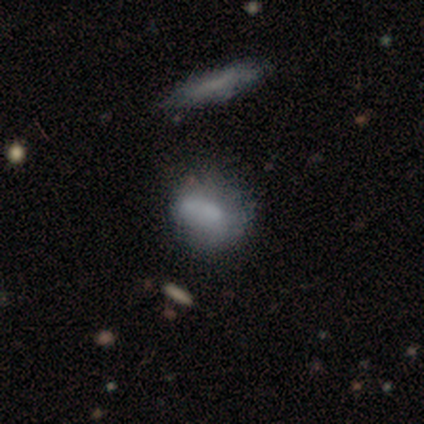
smooth 50%, featured or disk 42%, star or artifact 8%. Down the decision tree: how rounded — in between (83%); merging — none (55%).